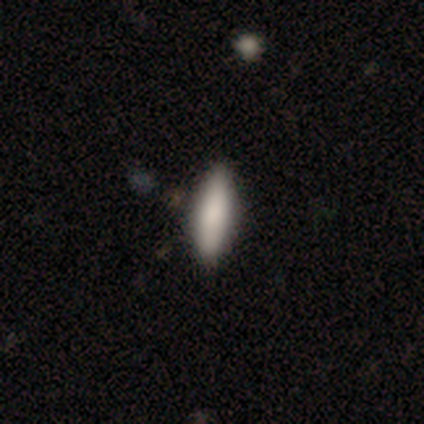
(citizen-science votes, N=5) This appears to be a smooth galaxy with no disk features (100%) that is in between round and cigar-shaped (80%). Merging: none (100%).